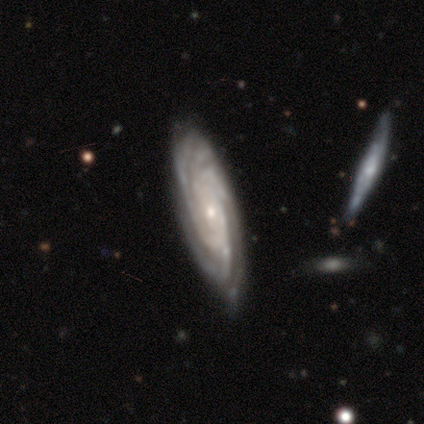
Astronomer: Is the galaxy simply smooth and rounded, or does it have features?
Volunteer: featured or disk — 100%.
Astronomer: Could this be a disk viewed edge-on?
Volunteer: no — 100%.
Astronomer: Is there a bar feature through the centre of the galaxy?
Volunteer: no — 60%.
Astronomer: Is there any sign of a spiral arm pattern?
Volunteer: yes — 100%.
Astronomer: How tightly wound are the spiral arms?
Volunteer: tight — 80%.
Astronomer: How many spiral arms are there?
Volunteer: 4 — 60%.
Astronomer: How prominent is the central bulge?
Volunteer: small — 80%.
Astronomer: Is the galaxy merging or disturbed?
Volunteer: none — 60%.